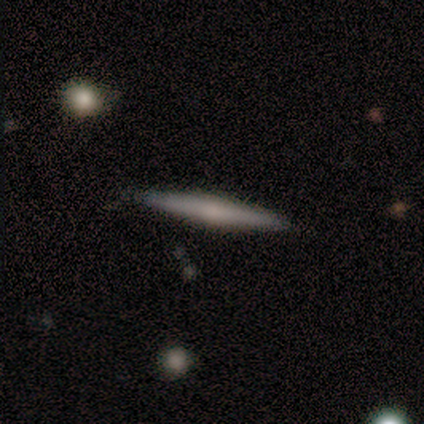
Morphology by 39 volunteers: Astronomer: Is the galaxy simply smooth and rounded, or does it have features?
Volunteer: featured or disk — 72%.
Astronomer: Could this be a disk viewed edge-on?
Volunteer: yes — 96%.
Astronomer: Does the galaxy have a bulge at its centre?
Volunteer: rounded — 70%.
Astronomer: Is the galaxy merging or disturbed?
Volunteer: none — 92%.